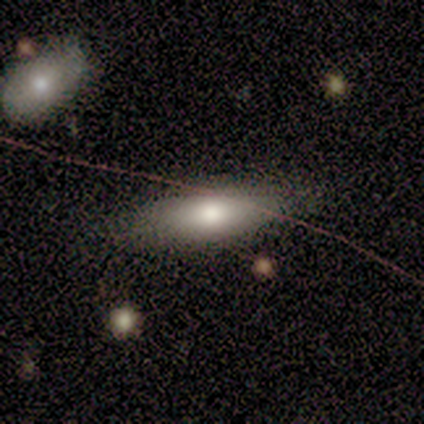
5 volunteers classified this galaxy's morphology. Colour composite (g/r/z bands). It shows a smooth galaxy with no disk features (80%) that is in between round and cigar-shaped (75%). Merging: none (80%).